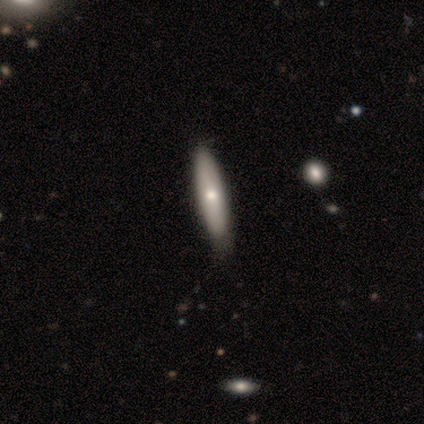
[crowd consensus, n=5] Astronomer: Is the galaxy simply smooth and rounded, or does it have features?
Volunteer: smooth — 80%.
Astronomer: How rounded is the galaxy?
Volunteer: in between — 50%, tied with cigar-shaped at 50%.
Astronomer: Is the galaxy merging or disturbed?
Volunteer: minor disturbance — 60%.